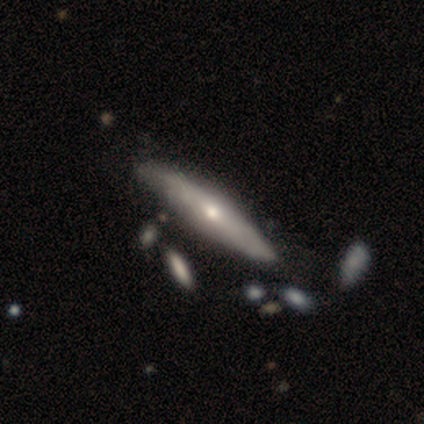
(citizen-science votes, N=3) Smooth or featured: featured or disk — 67% (star or artifact — 33%)
Edge-on disk: yes — 50% (tied with no — 50%)
Edge-on bulge: rounded — 100%
Merging: none — 100%